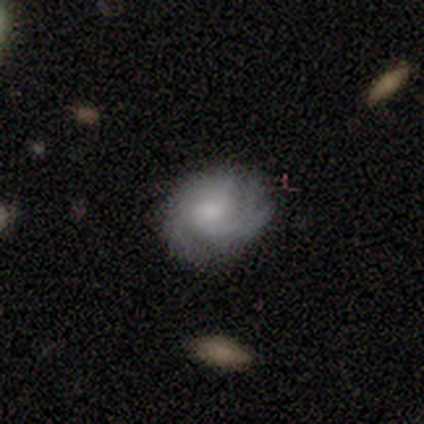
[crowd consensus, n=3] Smooth or featured: featured or disk — 67% (star or artifact — 33%)
Edge-on disk: no — 100%
Bar: weak — 50% (tied with no — 50%)
Spiral arms: yes — 100%
Spiral winding: loose — 100%
Spiral arm count: 1 — 50% (tied with 3 — 50%)
Bulge size: moderate — 100%
Merging: none — 100%